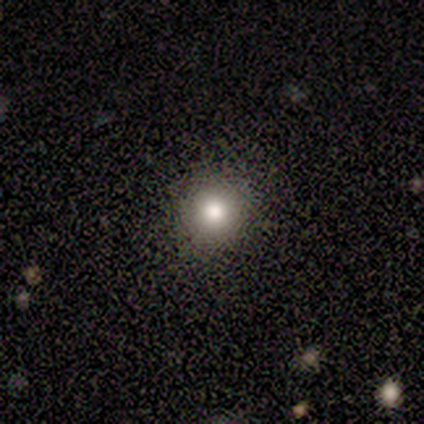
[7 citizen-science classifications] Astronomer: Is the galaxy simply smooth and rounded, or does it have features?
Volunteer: smooth — 86%.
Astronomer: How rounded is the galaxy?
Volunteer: round — 100%.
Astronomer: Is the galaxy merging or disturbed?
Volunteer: none — 100%.